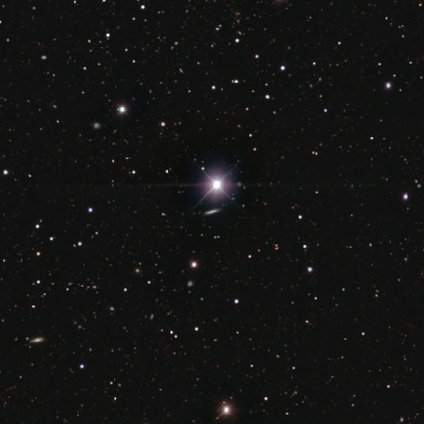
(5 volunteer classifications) Smooth or featured?
  - star or artifact: 100% *
  - smooth: 0%
  - featured or disk: 0%